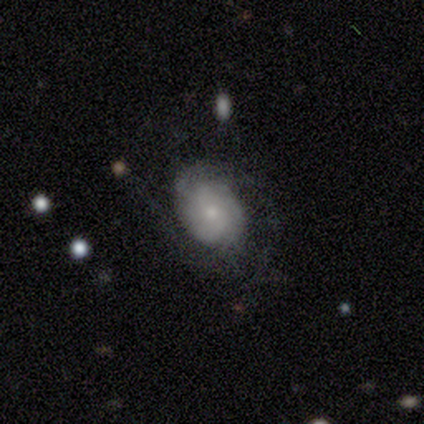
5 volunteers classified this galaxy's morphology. Smooth or featured? featured or disk (80%)
Edge-on disk? no (100%)
Bar? no (75%)
Spiral arms? yes (75%)
Spiral winding? medium (67%)
Spiral arm count? 2 (67%)
Bulge size? moderate (50%)
Merging? none (80%)